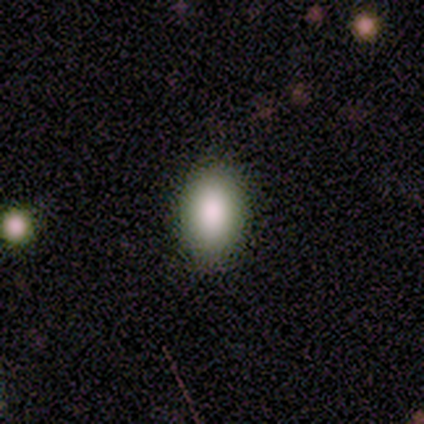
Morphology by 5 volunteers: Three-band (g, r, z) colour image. It shows a smooth galaxy with no disk features (100%) that is in between round and cigar-shaped (80%). Merging: none (100%).